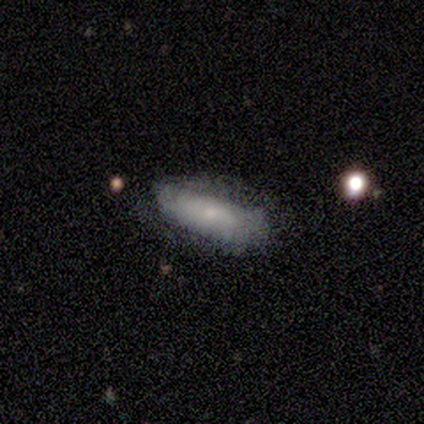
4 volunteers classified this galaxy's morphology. This is possibly a smooth galaxy (50%, tied with featured or disk). How rounded: clearly in between (100%). Merging: likely none (75%).